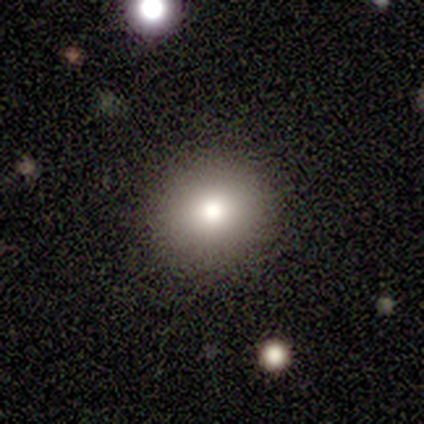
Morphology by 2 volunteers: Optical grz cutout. It shows a smooth galaxy with no disk features (50%, tied with featured or disk) that is round (100%). Merging: none (100%).